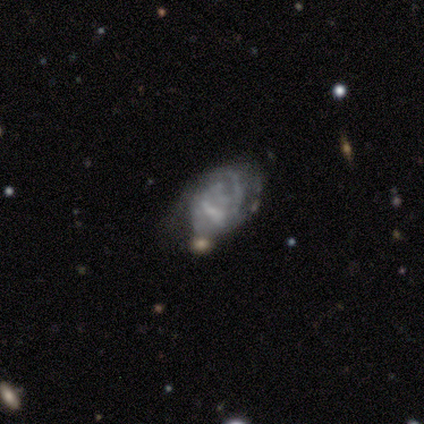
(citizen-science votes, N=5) Overall: featured or disk (80%). Edge-on disk: no (100%). Bar: no (75%). Spiral arms: yes (75%). Spiral arm count: 2 (67%; can't tell 33%). Spiral winding: medium (67%; tight 33%). Bulge size: none (75%). Merging: minor disturbance (40%, tied with merger).